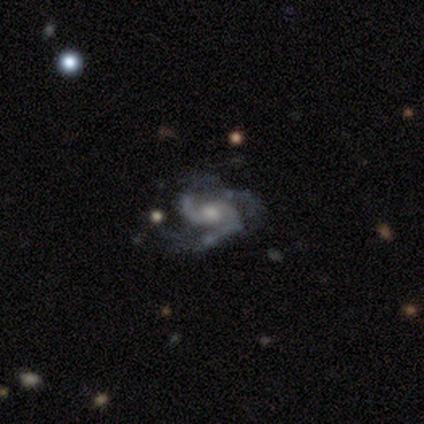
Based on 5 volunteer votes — Smooth or featured? 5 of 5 (100%) said featured or disk. Edge-on disk? 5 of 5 (100%) said no. Bar? 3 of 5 (60%) said weak. Spiral arms? 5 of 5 (100%) said yes. Spiral winding? 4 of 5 (80%) said medium. Spiral arm count? 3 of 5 (60%) said 2. Bulge size? 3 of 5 (60%) said moderate. Merging? 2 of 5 (40%, tied with major disturbance) said minor disturbance.